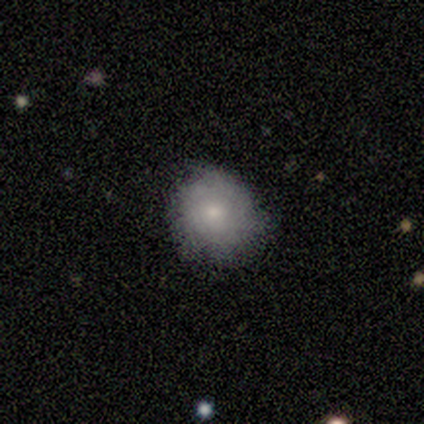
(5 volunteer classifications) This appears to be a smooth galaxy with no disk features (100%) that is round (80%). Merging: none (60%).